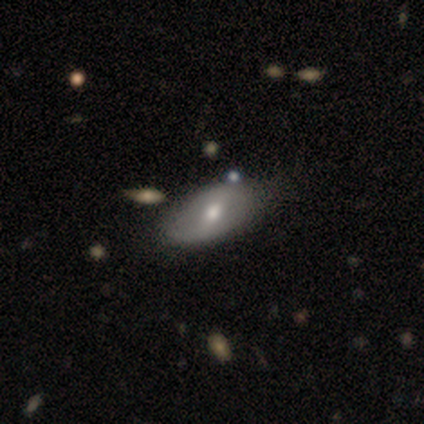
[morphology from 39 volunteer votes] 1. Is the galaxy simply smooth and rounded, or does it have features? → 54% featured or disk, 46% smooth, 0% star or artifact.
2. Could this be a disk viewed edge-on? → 100% no, 0% yes.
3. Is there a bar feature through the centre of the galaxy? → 43% weak, 38% strong, 19% no.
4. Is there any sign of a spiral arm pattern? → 52% no, 48% yes.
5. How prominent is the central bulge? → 86% moderate, 5% large, 5% small, 5% none, 0% dominant.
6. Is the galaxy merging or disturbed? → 49% none, 13% minor disturbance, 8% merger, 5% major disturbance.